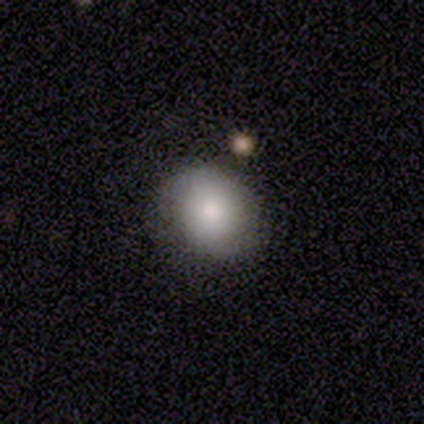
smooth-or-featured: smooth: 69% | featured or disk: 21% | star or artifact: 10%
  how-rounded: round: 78% | in between: 22% | cigar-shaped: 0%
  merging: none: 86% | minor disturbance: 11% | major disturbance: 3% | merger: 0%